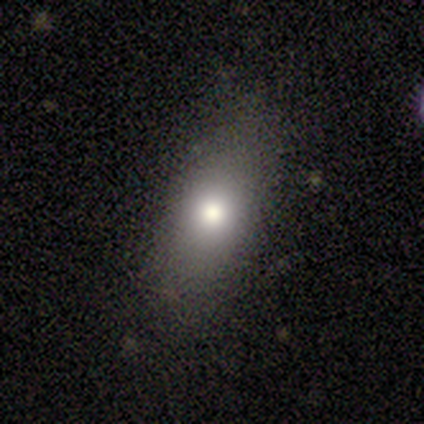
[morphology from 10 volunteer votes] Smooth or featured?
  - smooth: 90% *
  - star or artifact: 10%
  - featured or disk: 0%
How rounded?
  - in between: 89% *
  - cigar-shaped: 11%
  - round: 0%
Merging?
  - none: 89% *
  - minor disturbance: 11%
  - major disturbance: 0%
  - merger: 0%